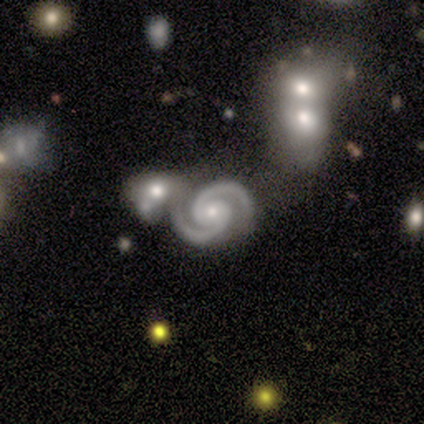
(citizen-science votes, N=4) Smooth or featured: featured or disk — 100%
Edge-on disk: no — 100%
Bar: no — 50% (strong — 25%)
Spiral arms: yes — 100%
Spiral winding: medium — 75% (tight — 25%)
Spiral arm count: 2 — 100%
Bulge size: moderate — 75% (small — 25%)
Merging: none — 50% (tied with merger — 50%)